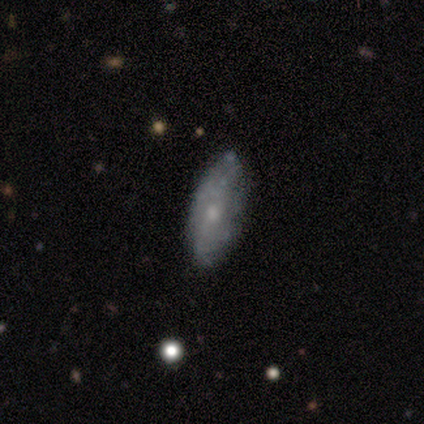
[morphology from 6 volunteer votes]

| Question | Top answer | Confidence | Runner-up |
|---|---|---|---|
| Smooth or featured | smooth | 50% | tied: featured or disk (50%) |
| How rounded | in between | 100% | — |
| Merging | none | 67% | minor disturbance (33%) |